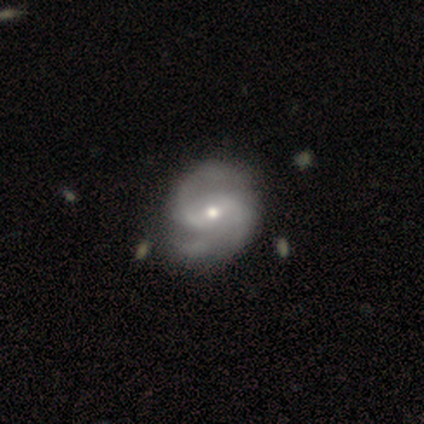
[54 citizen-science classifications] Q: Smooth or featured?
A: featured or disk (85%); runner-up: smooth (9%)
Q: Edge-on disk?
A: no (98%); runner-up: yes (2%)
Q: Bar?
A: weak (53%); runner-up: no (31%)
Q: Spiral arms?
A: yes (98%); runner-up: no (2%)
Q: Spiral winding?
A: medium (45%); runner-up: tight (32%)
Q: Spiral arm count?
A: 2 (73%); runner-up: 3 (16%)
Q: Bulge size?
A: small (60%); runner-up: moderate (36%)
Q: Merging?
A: none (65%); runner-up: minor disturbance (33%)